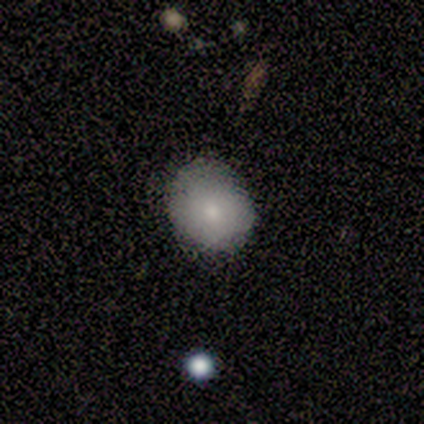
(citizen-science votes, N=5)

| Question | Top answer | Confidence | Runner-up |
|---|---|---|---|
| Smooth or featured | smooth | 100% | — |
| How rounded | round | 100% | — |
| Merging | minor disturbance | 60% | none (40%) |